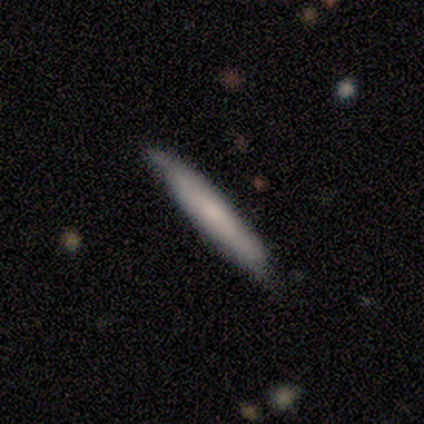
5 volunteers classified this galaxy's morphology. Smooth or featured?
  - featured or disk: 60% *
  - smooth: 40%
  - star or artifact: 0%
Edge-on disk?
  - yes: 67% *
  - no: 33%
Edge-on bulge?
  - none: 100% *
  - boxy: 0%
  - rounded: 0%
Merging?
  - none: 100% *
  - minor disturbance: 0%
  - major disturbance: 0%
  - merger: 0%